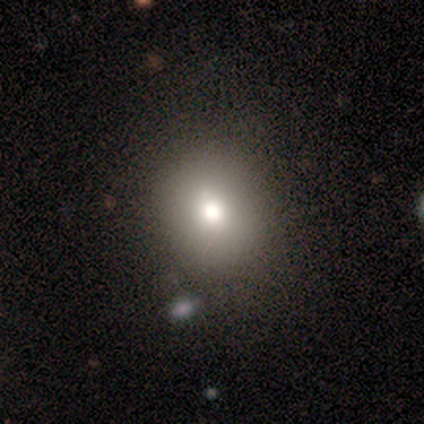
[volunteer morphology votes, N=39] Smooth or featured? 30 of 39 (77%) said smooth. How rounded? 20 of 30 (67%) said round. Merging? 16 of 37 (43%) said none.